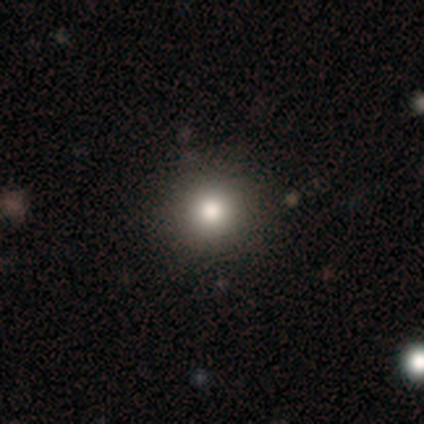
Volunteers were most divided on "smooth or featured": smooth: 70%, star or artifact: 24%, featured or disk: 5%. More confident: how rounded — round (96%); merging — none (93%).